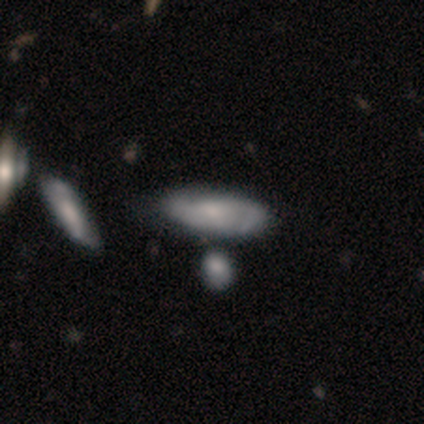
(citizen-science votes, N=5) A smooth galaxy with no disk features (40%, tied with featured or disk) that is in between round and cigar-shaped (100%).

Vote fractions:
- Smooth or featured? smooth: 40% (tied) / featured or disk: 40% (tied) / star or artifact: 20%
- How rounded? in between: 100% / round: 0% / cigar-shaped: 0%
- Merging? none: 50% (tied) / minor disturbance: 50% (tied) / major disturbance: 0% / merger: 0%